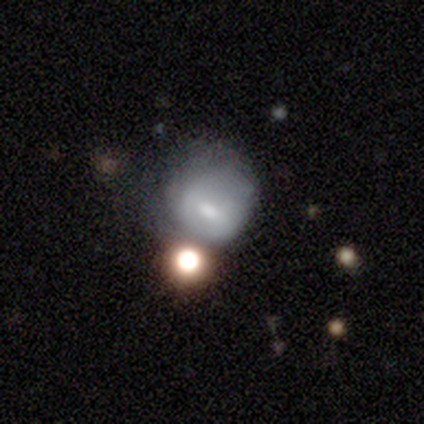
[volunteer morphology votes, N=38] A smooth galaxy with no disk features (63%) that is round (71%). Merging: minor disturbance (28%).